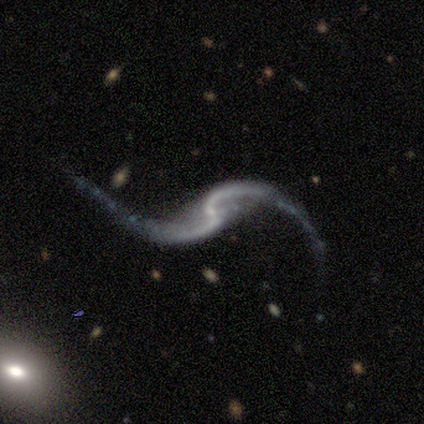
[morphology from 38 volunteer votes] Overall: featured or disk (92%). Edge-on disk: no (97%). Bar: no (50%; weak 35%). Spiral arms: yes (94%). Spiral arm count: 2 (91%). Spiral winding: loose (94%). Bulge size: small (62%; none 32%). Merging: none (57%; major disturbance 20%).